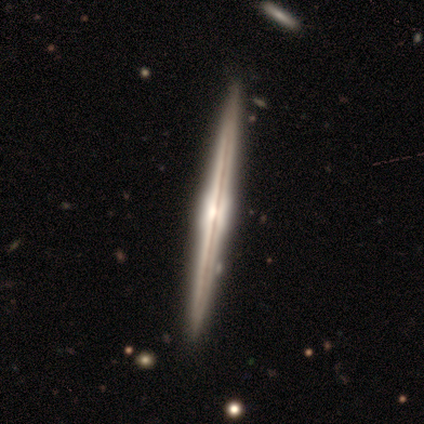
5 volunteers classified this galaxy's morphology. Smooth or featured? 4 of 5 (80%) said featured or disk. Edge-on disk? 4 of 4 (100%) said yes. Edge-on bulge? 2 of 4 (50%) said boxy. Merging? 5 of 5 (100%) said none.